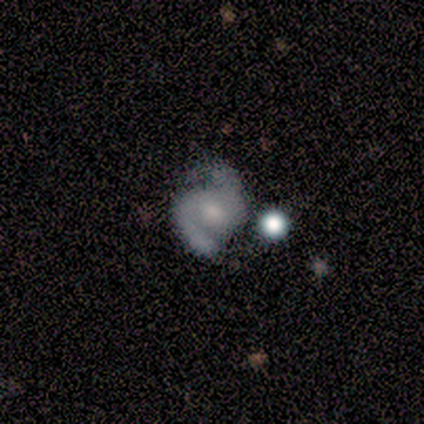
Smooth or featured? featured or disk (90%)
Edge-on disk? no (100%)
Bar? no (64%)
Spiral arms? yes (94%)
Spiral winding? medium (56%)
Spiral arm count? 2 (100%)
Bulge size? moderate (36%)
Merging? none (62%)